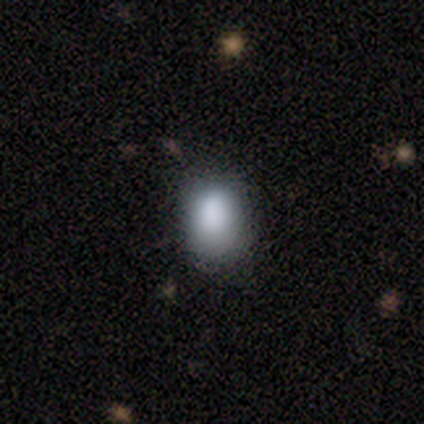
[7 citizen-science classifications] smooth-or-featured: smooth: 100% | featured or disk: 0% | star or artifact: 0%
  how-rounded: in between: 71% | round: 29% | cigar-shaped: 0%
  merging: none: 71% | minor disturbance: 29% | major disturbance: 0% | merger: 0%